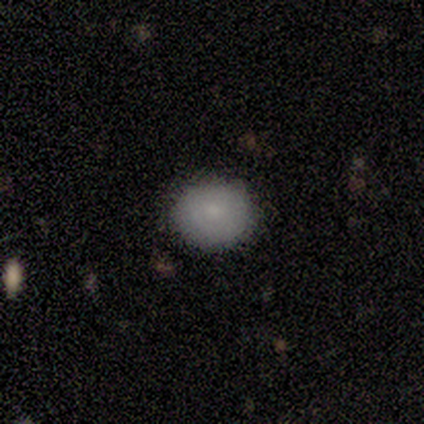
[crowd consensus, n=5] Smooth or featured?
  - smooth: 60% *
  - star or artifact: 40%
  - featured or disk: 0%
How rounded?
  - round: 67% *
  - in between: 33%
  - cigar-shaped: 0%
Merging?
  - none: 67% *
  - minor disturbance: 33%
  - major disturbance: 0%
  - merger: 0%